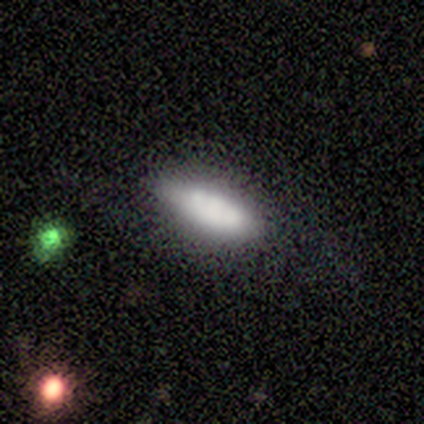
A smooth galaxy with no disk features (80%) that is cigar-shaped (75%).

Vote fractions:
- Smooth or featured? smooth: 80% / featured or disk: 20% / star or artifact: 0%
- How rounded? cigar-shaped: 75% / in between: 25% / round: 0%
- Merging? none: 80% / minor disturbance: 20% / major disturbance: 0% / merger: 0%